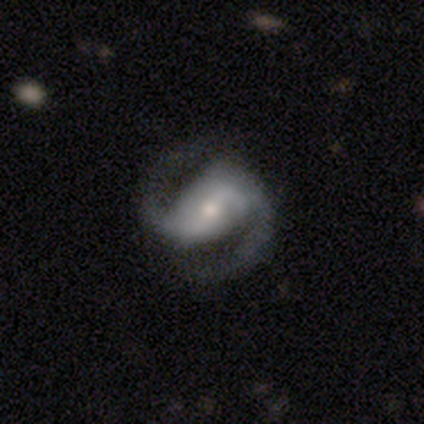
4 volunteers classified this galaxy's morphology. Volunteers were most divided on "spiral winding" (2-way tie): medium: 50%, loose: 50%, tight: 0%. More confident: edge-on disk — no (100%); spiral arm count — 2 (100%); merging — none (100%); smooth or featured — featured or disk (75%); bar — no (67%); spiral arms — yes (67%); bulge size — small (67%).